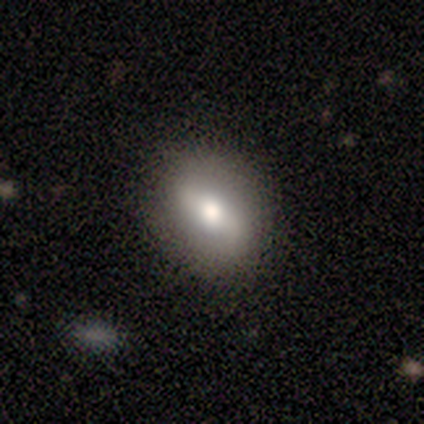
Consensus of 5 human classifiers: Morphology: type=smooth (100%); roundness=in between (60%); merging=none (100%).